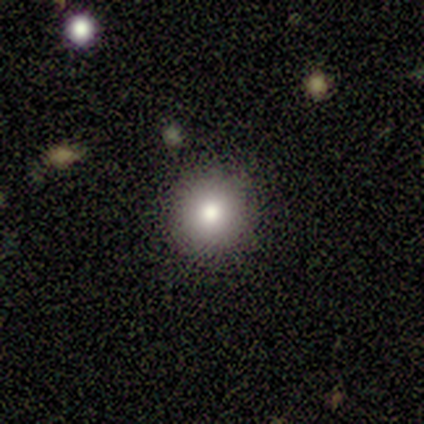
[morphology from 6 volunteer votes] Smooth or featured? 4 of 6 (67%) said smooth. How rounded? 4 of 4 (100%) said round. Merging? 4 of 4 (100%) said none.